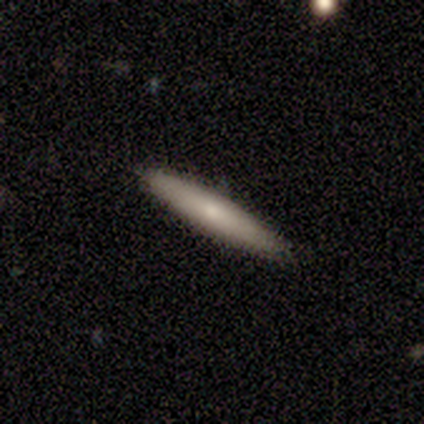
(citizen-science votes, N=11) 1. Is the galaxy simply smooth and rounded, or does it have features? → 55% smooth, 45% featured or disk, 0% star or artifact.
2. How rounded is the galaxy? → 83% cigar-shaped, 17% in between, 0% round.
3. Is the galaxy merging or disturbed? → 100% none, 0% minor disturbance, 0% major disturbance, 0% merger.